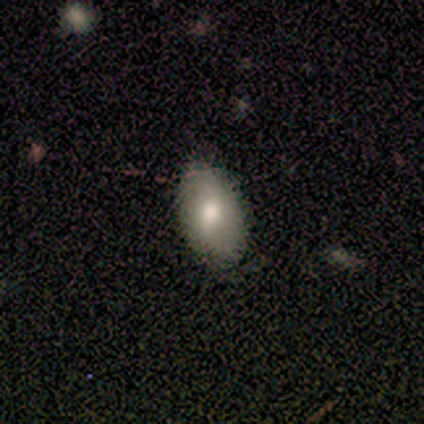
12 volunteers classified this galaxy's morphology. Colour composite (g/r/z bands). It shows a smooth galaxy with no disk features (83%) that is in between round and cigar-shaped (100%). Merging: none (58%).